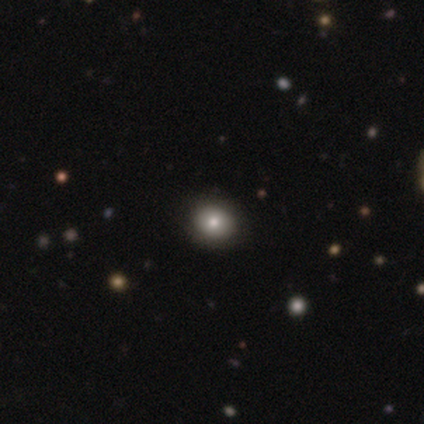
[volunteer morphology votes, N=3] A smooth galaxy with no disk features (67%) that is round (100%). Merging: none (100%).